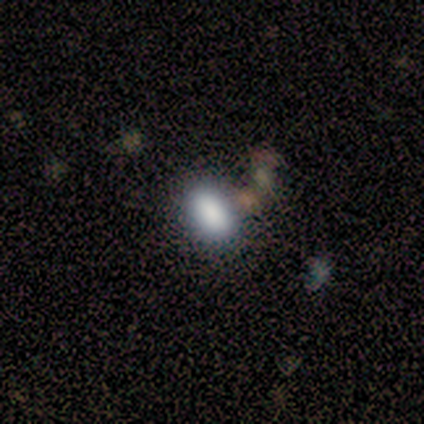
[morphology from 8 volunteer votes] smooth 100%, featured or disk 0%, star or artifact 0%. Down the decision tree: how rounded — in between (100%); merging — none (88%).